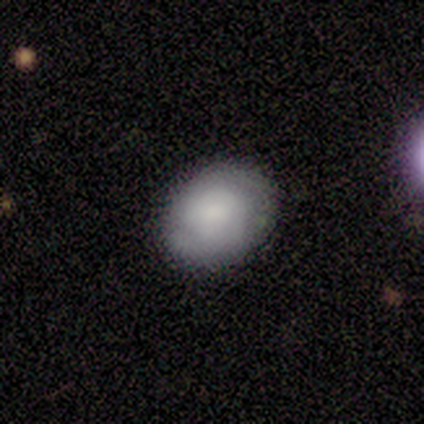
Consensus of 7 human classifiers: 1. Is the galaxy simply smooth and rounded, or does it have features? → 71% smooth, 29% featured or disk, 0% star or artifact.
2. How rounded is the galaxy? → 80% in between, 20% round, 0% cigar-shaped.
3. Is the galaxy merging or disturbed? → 100% none, 0% minor disturbance, 0% major disturbance, 0% merger.